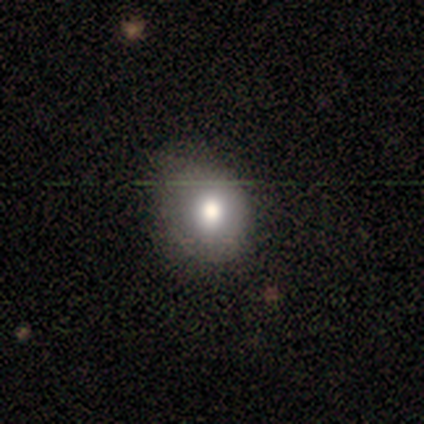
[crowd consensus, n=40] Overall: smooth (75%). How rounded: round (63%; in between 37%). Merging: none (42%; minor disturbance 19%).